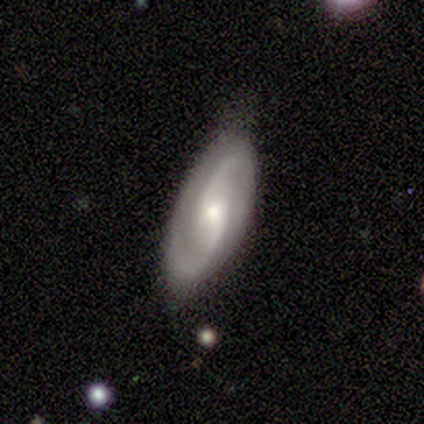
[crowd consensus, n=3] Smooth or featured?
  - featured or disk: 67% *
  - smooth: 33%
  - star or artifact: 0%
Edge-on disk?
  - no: 100% *
  - yes: 0%
Bar?
  - weak: 50% * (tied)
  - no: 50% * (tied)
  - strong: 0%
Spiral arms?
  - yes: 100% *
  - no: 0%
Spiral winding?
  - tight: 50% * (tied)
  - medium: 50% * (tied)
  - loose: 0%
Spiral arm count?
  - 2: 100% *
  - 1: 0%
  - 3: 0%
  - 4: 0%
  - more than 4: 0%
  - can't tell: 0%
Bulge size?
  - moderate: 100% *
  - dominant: 0%
  - large: 0%
  - small: 0%
  - none: 0%
Merging?
  - none: 100% *
  - minor disturbance: 0%
  - major disturbance: 0%
  - merger: 0%